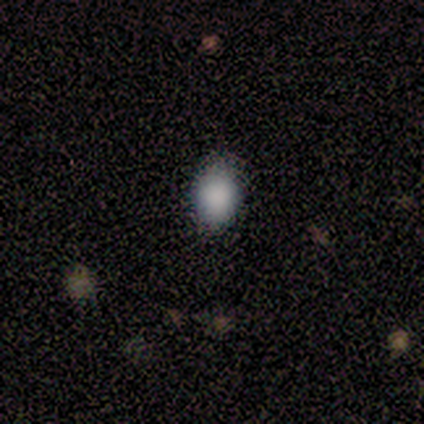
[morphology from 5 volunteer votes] Smooth or featured? smooth (80%)
How rounded? in between (75%)
Merging? none (100%)